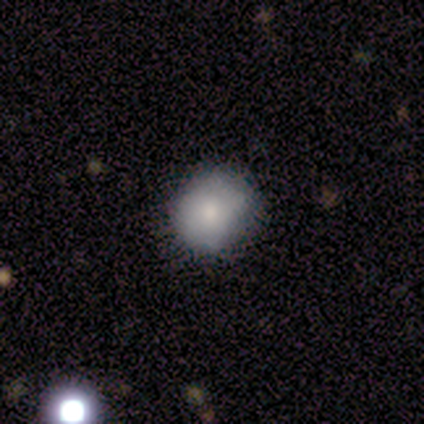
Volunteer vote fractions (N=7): Volunteers were most divided on "merging": none: 71%, minor disturbance: 29%, major disturbance: 0%, merger: 0%. More confident: smooth or featured — smooth (100%); how rounded — round (100%).